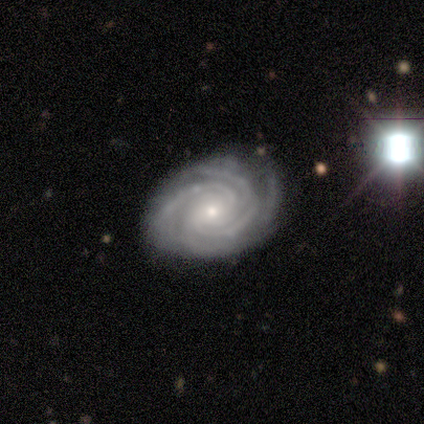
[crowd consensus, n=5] A featured or disk galaxy (100%) with no bar (80%), 4 (60%) tight (60%) spiral arms (100%) and a small central bulge (60%).

Vote fractions:
- Smooth or featured? featured or disk: 100% / smooth: 0% / star or artifact: 0%
- Edge-on disk? no: 100% / yes: 0%
- Bar? no: 80% / strong: 20% / weak: 0%
- Spiral arms? yes: 100% / no: 0%
- Spiral winding? tight: 60% / medium: 40% / loose: 0%
- Spiral arm count? 4: 60% / more than 4: 20% / can't tell: 20% / 1: 0% / 2: 0% / 3: 0%
- Bulge size? small: 60% / moderate: 40% / dominant: 0% / large: 0% / none: 0%
- Merging? none: 60% / minor disturbance: 20% / major disturbance: 20% / merger: 0%